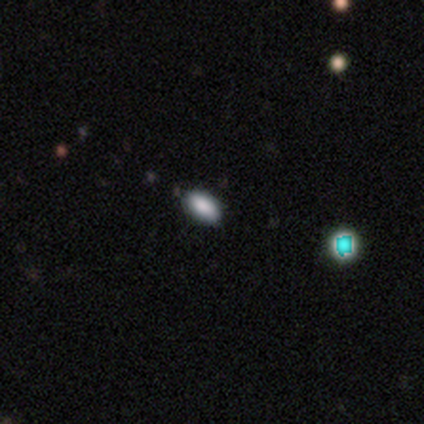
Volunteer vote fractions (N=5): Smooth or featured? smooth (60%)
How rounded? in between (100%)
Merging? none (67%)